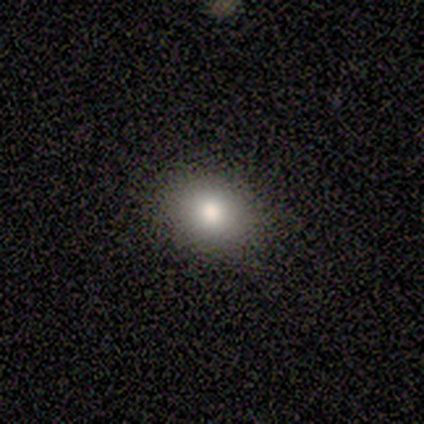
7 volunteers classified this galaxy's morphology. Smooth or featured? smooth (86%)
How rounded? round (67%)
Merging? none (100%)